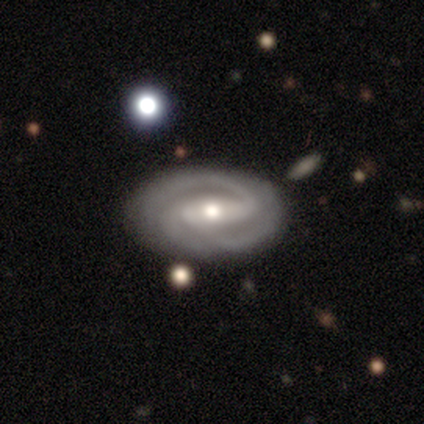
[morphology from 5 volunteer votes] Overall: featured or disk (100%). Edge-on disk: no (100%). Bar: strong (80%). Spiral arms: yes (100%). Spiral arm count: 2 (60%; 3 40%). Spiral winding: tight (40%, tied with medium). Bulge size: moderate (80%). Merging: none (100%).